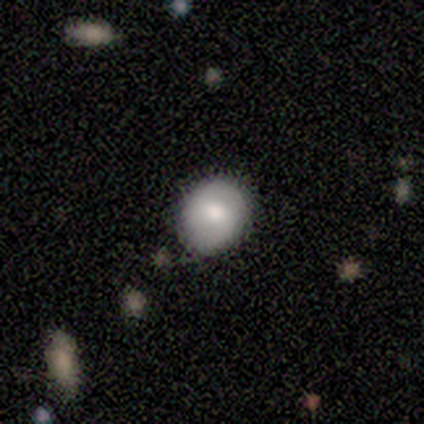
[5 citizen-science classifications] Morphology: type=smooth (40%, tied with star or artifact); roundness=round (50%, tied with in between); merging=none (100%).